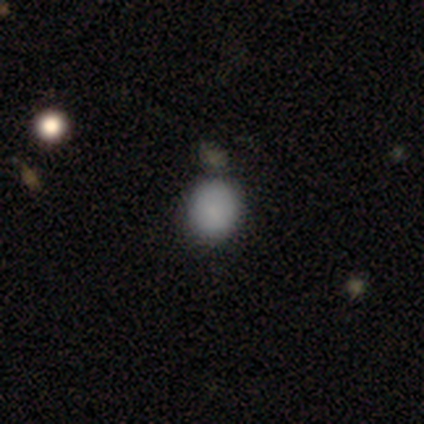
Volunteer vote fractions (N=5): This is clearly a smooth galaxy (100%). How rounded: likely round (60%). Merging: clearly none (80%).